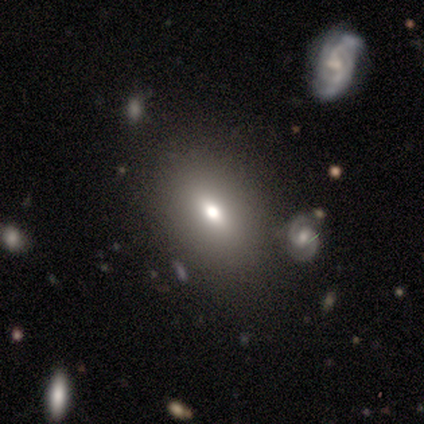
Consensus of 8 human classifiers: Smooth or featured?
  - smooth: 38% * (tied)
  - star or artifact: 38% * (tied)
  - featured or disk: 25%
How rounded?
  - in between: 67% *
  - cigar-shaped: 33%
  - round: 0%
Merging?
  - none: 80% *
  - minor disturbance: 20%
  - major disturbance: 0%
  - merger: 0%